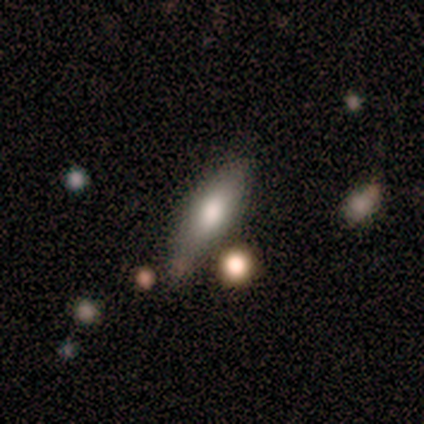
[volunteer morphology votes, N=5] smooth 100%, featured or disk 0%, star or artifact 0%. Down the decision tree: how rounded — in between (60%); merging — minor disturbance (60%).